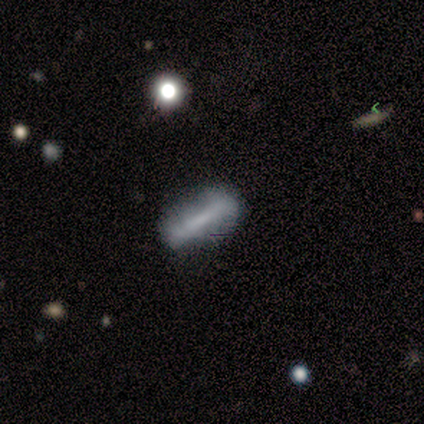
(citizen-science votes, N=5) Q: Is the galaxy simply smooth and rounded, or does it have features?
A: smooth — 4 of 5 (80%).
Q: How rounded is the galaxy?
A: in between — 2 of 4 (50%, tied with cigar-shaped).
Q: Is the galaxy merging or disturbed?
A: none — 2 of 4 (50%, tied with minor disturbance).